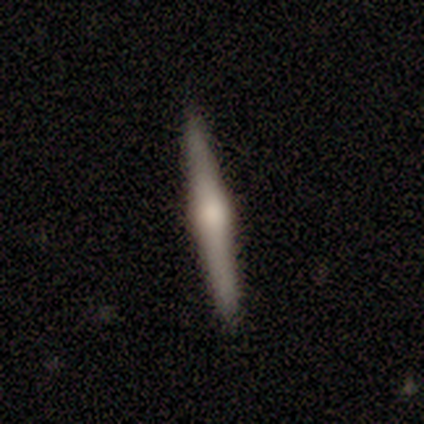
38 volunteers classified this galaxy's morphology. Q: Smooth or featured?
A: featured or disk (82%); runner-up: smooth (18%)
Q: Edge-on disk?
A: yes (100%)
Q: Edge-on bulge?
A: rounded (84%); runner-up: boxy (16%)
Q: Merging?
A: none (71%); runner-up: minor disturbance (8%)